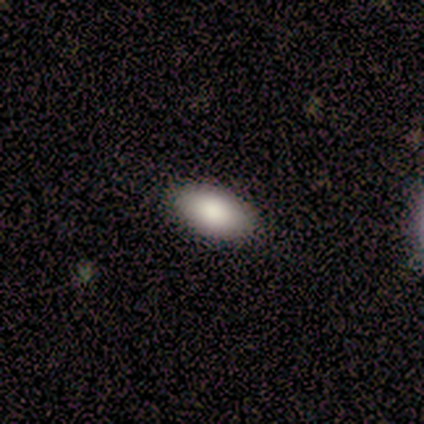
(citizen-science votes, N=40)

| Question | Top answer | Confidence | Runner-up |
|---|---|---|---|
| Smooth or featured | smooth | 88% | featured or disk (10%) |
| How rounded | in between | 94% | round (3%) |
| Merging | none | 90% | minor disturbance (8%) |